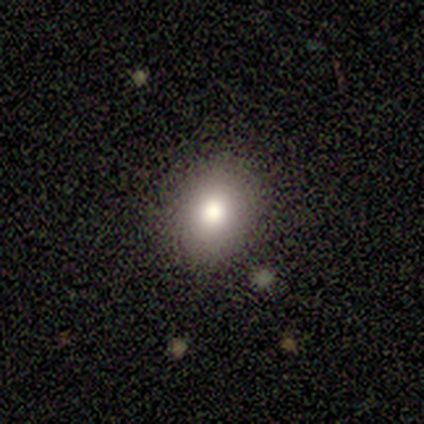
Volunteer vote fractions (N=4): smooth 100%, featured or disk 0%, star or artifact 0%. Down the decision tree: how rounded — round (75%); merging — none (100%).